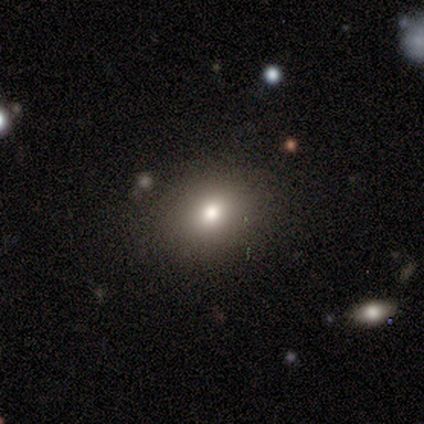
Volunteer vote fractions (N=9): Volunteers were most divided on "how rounded" (2-way tie): round: 50%, in between: 50%, cigar-shaped: 0%. More confident: merging — none (78%); smooth or featured — smooth (67%).